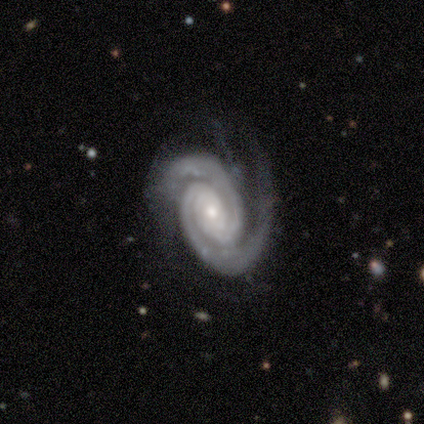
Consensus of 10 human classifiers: A featured or disk galaxy (100%) with no bar (70%), 2 (60%) tight (80%) spiral arms (100%) and a small central bulge (70%). Merging: none (90%).